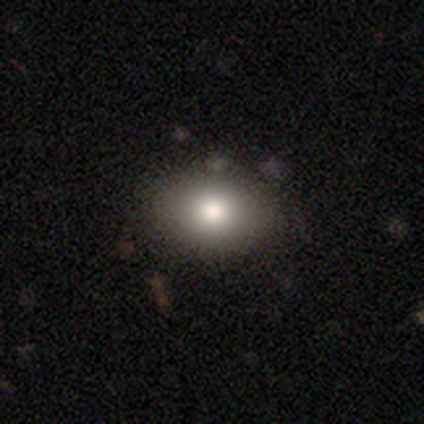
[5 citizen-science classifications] Smooth or featured: smooth — 60% (featured or disk — 40%)
How rounded: in between — 100%
Merging: none — 80% (major disturbance — 20%)